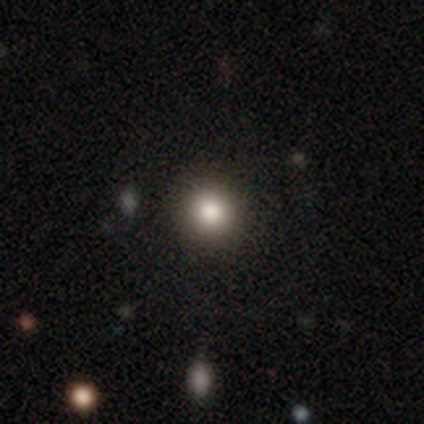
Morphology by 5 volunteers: Consensus on every question: smooth or featured — smooth (100%); how rounded — round (100%); merging — none (100%).